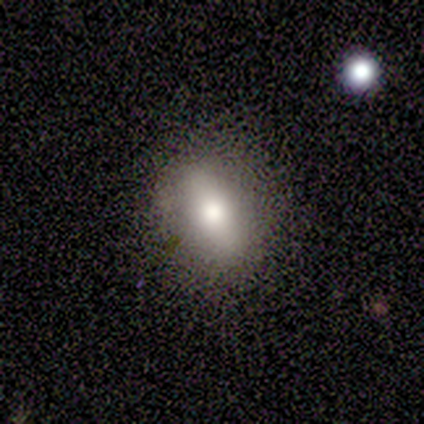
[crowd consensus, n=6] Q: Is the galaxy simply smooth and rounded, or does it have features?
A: smooth — 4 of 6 (67%).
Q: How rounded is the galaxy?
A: in between — 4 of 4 (100%).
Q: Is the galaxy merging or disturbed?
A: none — 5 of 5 (100%).